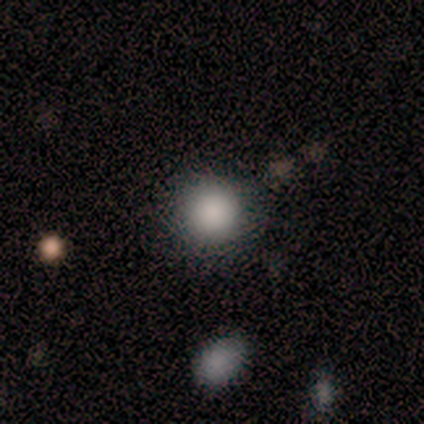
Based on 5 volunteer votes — Smooth or featured? smooth (100%)
How rounded? round (100%)
Merging? none (100%)